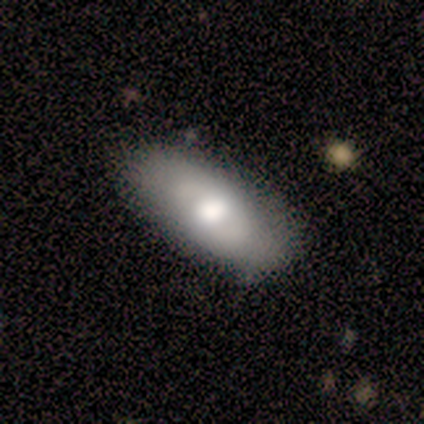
This appears to be a smooth galaxy with no disk features (60%) that is in between round and cigar-shaped (67%). Merging: none (100%).